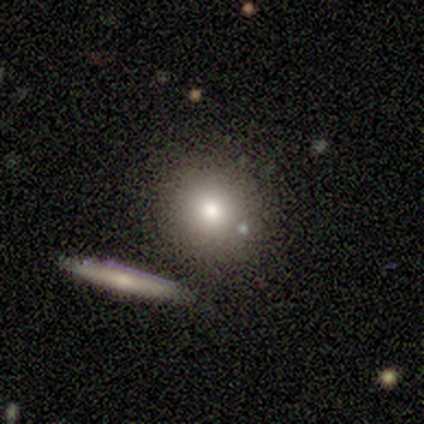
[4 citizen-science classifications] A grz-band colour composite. It shows a smooth galaxy with no disk features (75%) that is round (67%). Merging: none (33%, tied with minor disturbance and merger).